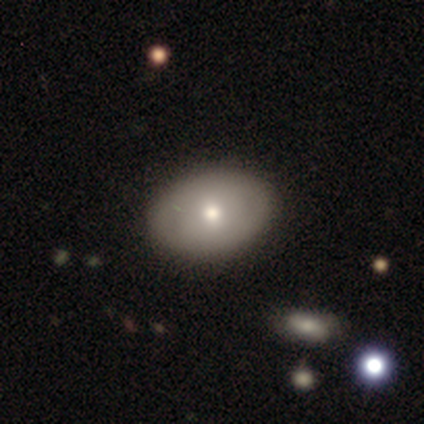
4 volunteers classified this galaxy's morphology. Overall: smooth (75%). How rounded: in between (67%; round 33%). Merging: none (100%).